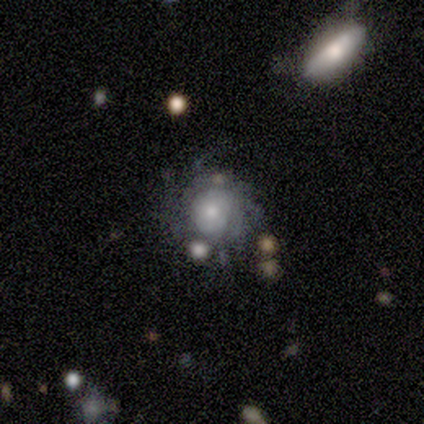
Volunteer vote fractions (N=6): smooth_or_featured: featured or disk (p=0.83) [alt: smooth p=0.17]
disk_edge_on: no (p=1.00)
bar: no (p=1.00)
has_spiral_arms: yes (p=1.00)
spiral_winding: tight (p=0.40) [tied with: loose p=0.40]
spiral_arm_count: can't tell (p=0.80) [alt: more than 4 p=0.20]
bulge_size: moderate (p=0.60) [alt: small p=0.40]
merging: minor disturbance (p=0.83) [alt: none p=0.17]